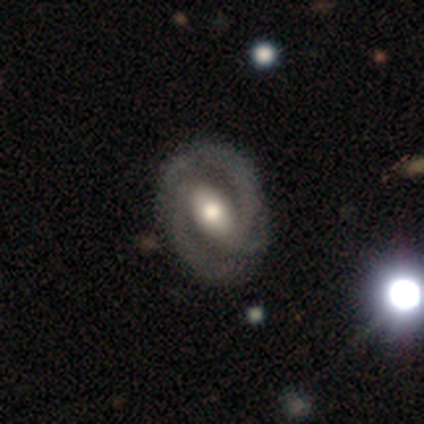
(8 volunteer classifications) Overall: featured or disk (75%). Edge-on disk: no (83%). Bar: weak (60%; strong 20%). Spiral arms: yes (100%). Spiral arm count: 2 (100%). Spiral winding: medium (60%; tight 40%). Bulge size: moderate (80%). Merging: none (75%).